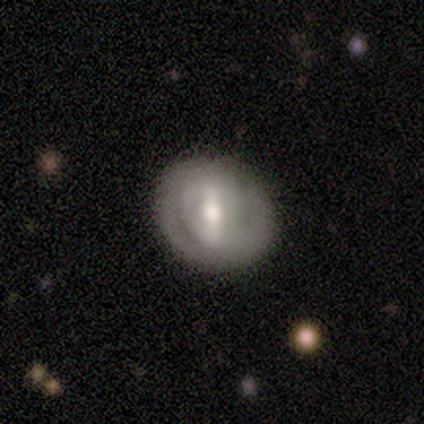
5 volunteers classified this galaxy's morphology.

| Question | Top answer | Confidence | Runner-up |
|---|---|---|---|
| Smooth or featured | smooth | 60% | featured or disk (40%) |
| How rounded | round | 67% | in between (33%) |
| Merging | none | 80% | major disturbance (20%) |